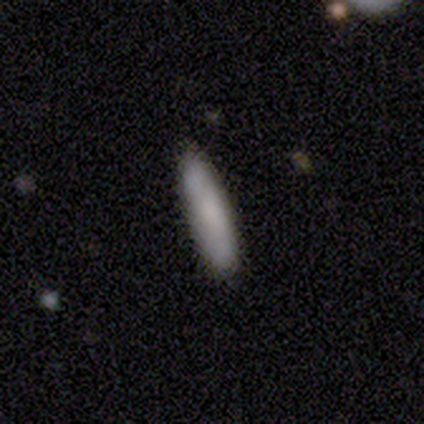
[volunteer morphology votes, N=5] smooth-or-featured: smooth: 80% | featured or disk: 20% | star or artifact: 0%
  how-rounded: cigar-shaped: 75% | in between: 25% | round: 0%
  merging: none: 80% | minor disturbance: 20% | major disturbance: 0% | merger: 0%